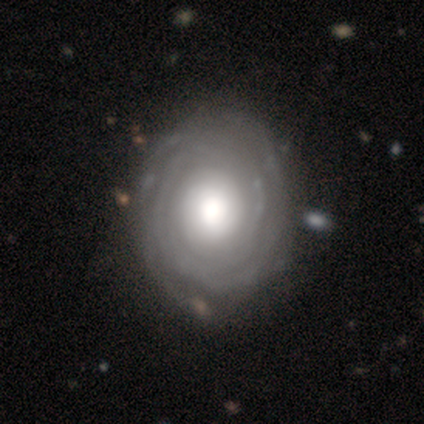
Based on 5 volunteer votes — Volunteers were most divided on "bulge size" (2-way tie): dominant: 40%, large: 40%, moderate: 20%, small: 0%, none: 0%. More confident: smooth or featured — featured or disk (100%); edge-on disk — no (100%); spiral arms — yes (80%); merging — none (80%); spiral winding — tight (75%); spiral arm count — can't tell (75%); bar — no (60%).